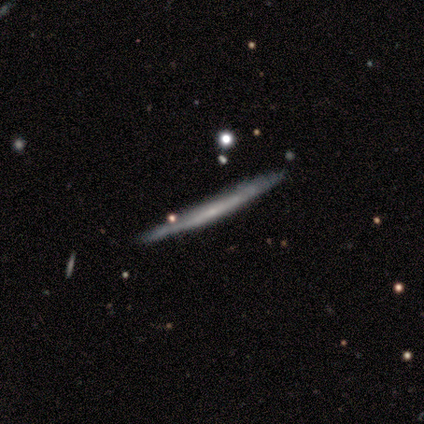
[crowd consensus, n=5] This is likely a featured or disk galaxy (60%). It is clearly viewed edge-on (100%). Edge-on bulge: clearly none (100%). Merging: clearly none (100%).